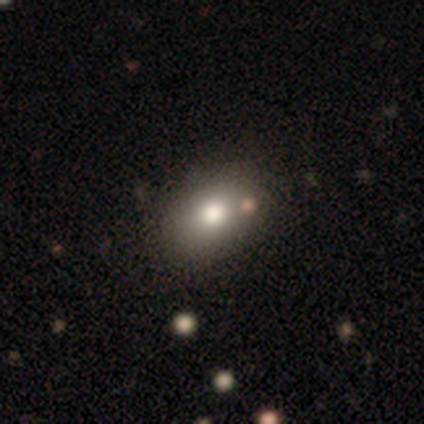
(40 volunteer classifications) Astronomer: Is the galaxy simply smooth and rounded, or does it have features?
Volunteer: smooth — 75%.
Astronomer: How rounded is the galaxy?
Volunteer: in between — 80%.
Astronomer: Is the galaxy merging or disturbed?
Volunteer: none — 54%.